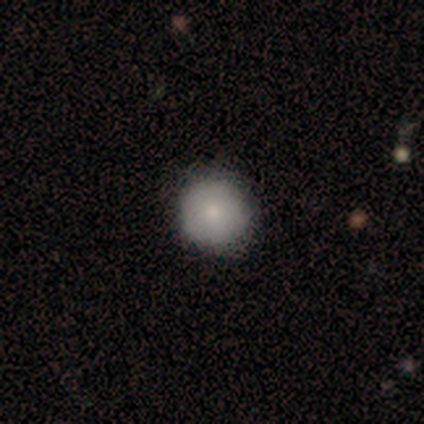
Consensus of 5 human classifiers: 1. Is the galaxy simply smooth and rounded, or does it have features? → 40% smooth (tied), 40% featured or disk (tied), 20% star or artifact.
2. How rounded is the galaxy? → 100% round, 0% in between, 0% cigar-shaped.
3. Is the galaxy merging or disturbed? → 100% none, 0% minor disturbance, 0% major disturbance, 0% merger.